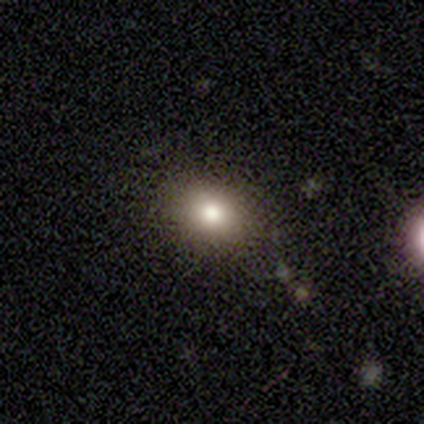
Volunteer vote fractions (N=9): A smooth galaxy with no disk features (78%) that is round (57%). Merging: none (86%).